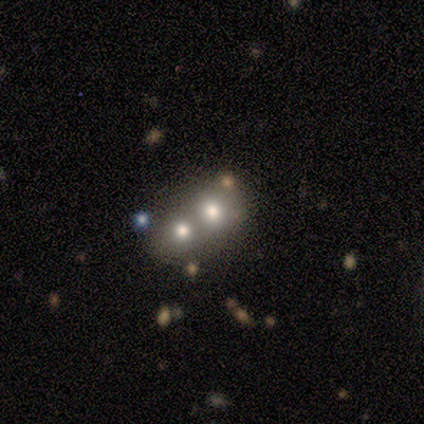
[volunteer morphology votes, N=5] Overall: smooth (80%). How rounded: round (75%). Merging: minor disturbance (40%, tied with merger).